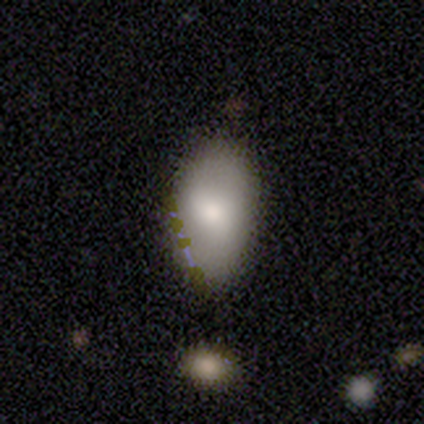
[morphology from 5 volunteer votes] Q: Smooth or featured?
A: smooth (60%); runner-up: featured or disk (20%)
Q: How rounded?
A: in between (67%); runner-up: cigar-shaped (33%)
Q: Merging?
A: none (75%); runner-up: minor disturbance (25%)